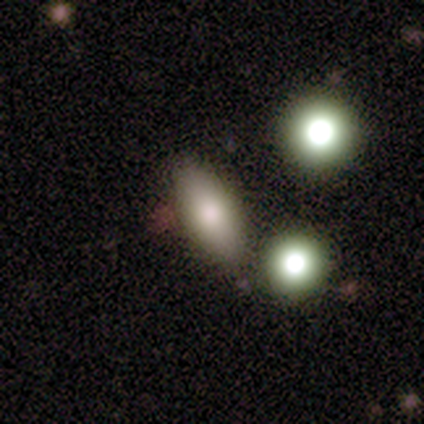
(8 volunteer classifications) A smooth galaxy with no disk features (62%) that is in between round and cigar-shaped (80%).

Vote fractions:
- Smooth or featured? smooth: 62% / star or artifact: 25% / featured or disk: 12%
- How rounded? in between: 80% / round: 20% / cigar-shaped: 0%
- Merging? none: 50% / minor disturbance: 33% / merger: 17% / major disturbance: 0%